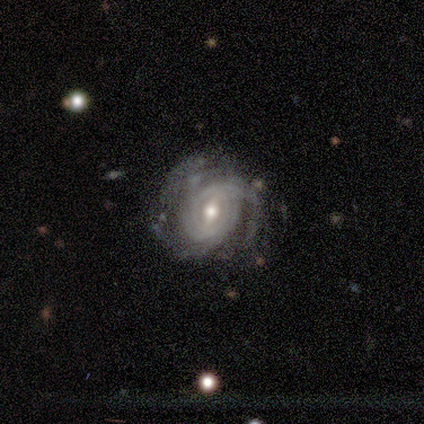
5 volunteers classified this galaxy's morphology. A featured or disk galaxy (100%) with a strong bar (60%), tight (80%) spiral arms (100%) and a moderate central bulge (80%).

Vote fractions:
- Smooth or featured? featured or disk: 100% / smooth: 0% / star or artifact: 0%
- Edge-on disk? no: 100% / yes: 0%
- Bar? strong: 60% / weak: 40% / no: 0%
- Spiral arms? yes: 100% / no: 0%
- Spiral winding? tight: 80% / medium: 20% / loose: 0%
- Spiral arm count? can't tell: 60% / 3: 40% / 1: 0% / 2: 0% / 4: 0% / more than 4: 0%
- Bulge size? moderate: 80% / small: 20% / dominant: 0% / large: 0% / none: 0%
- Merging? none: 60% / minor disturbance: 40% / major disturbance: 0% / merger: 0%